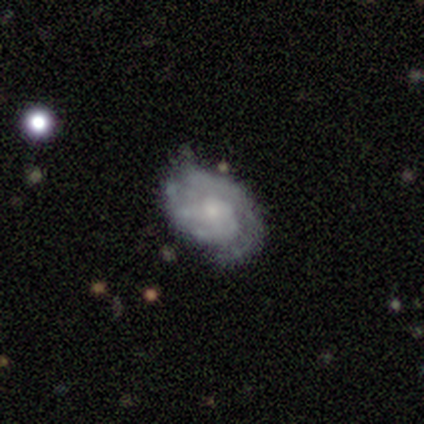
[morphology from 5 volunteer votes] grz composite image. It shows a featured or disk galaxy (60%) with no bar (67%), 2 (67%) tight (33%, tied with medium and loose) spiral arms (100%) and a small central bulge (100%). Merging: none (60%).